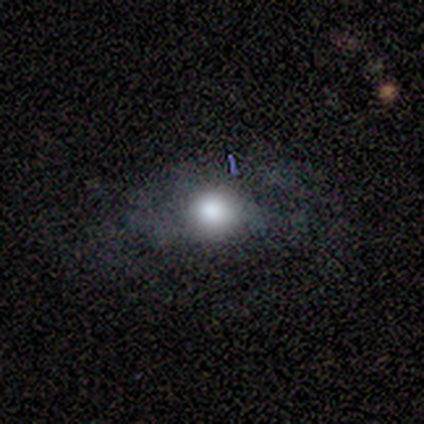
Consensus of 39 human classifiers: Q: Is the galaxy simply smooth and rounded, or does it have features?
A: smooth — 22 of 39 (56%).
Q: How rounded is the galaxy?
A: round — 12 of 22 (55%).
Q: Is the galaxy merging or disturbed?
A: none — 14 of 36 (39%).